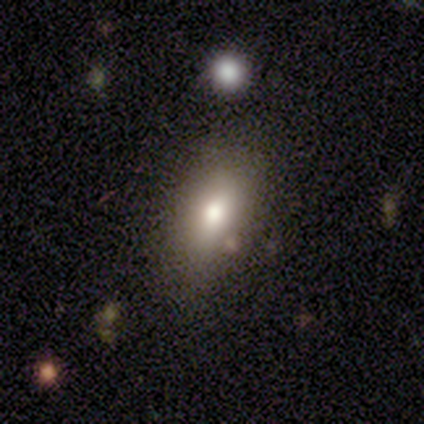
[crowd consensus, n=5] Volunteers were most divided on "smooth or featured": smooth: 60%, featured or disk: 40%, star or artifact: 0%. More confident: how rounded — in between (100%); merging — none (60%).